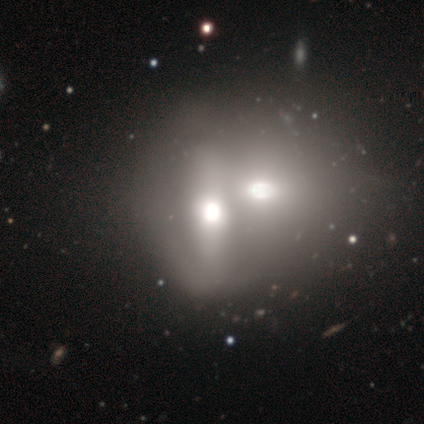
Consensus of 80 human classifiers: Morphology: type=featured or disk (45%); edge-on=no (83%); bar=strong (47%, tied with no); spiral arms=no (93%); bulge=large (43%); merging=merger (73%).